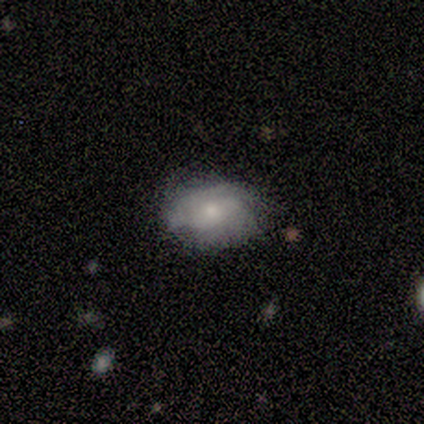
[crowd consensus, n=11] featured or disk 64%, smooth 36%, star or artifact 0%. Down the decision tree: edge-on disk — no (100%); bar — no (71%); spiral arms — yes (57%); spiral arm count — 1 (25%, tied with 2, 4 and can't tell); spiral winding — tight (50%, tied with medium); bulge size — small (57%); merging — none (36%, tied with minor disturbance).